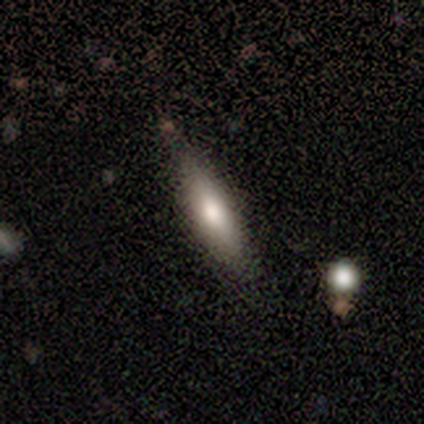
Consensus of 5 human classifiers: smooth 100%, featured or disk 0%, star or artifact 0%. Down the decision tree: how rounded — cigar-shaped (60%); merging — none (100%).